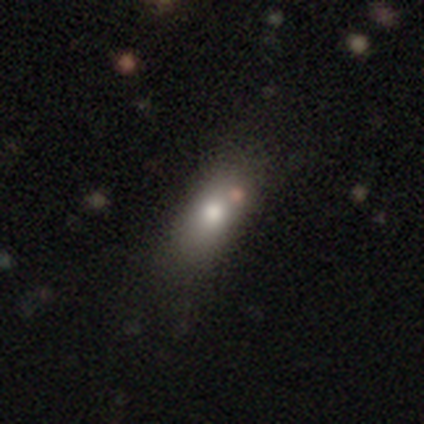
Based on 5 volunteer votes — Morphology: type=smooth (100%); roundness=in between (100%); merging=none (40%, tied with merger).